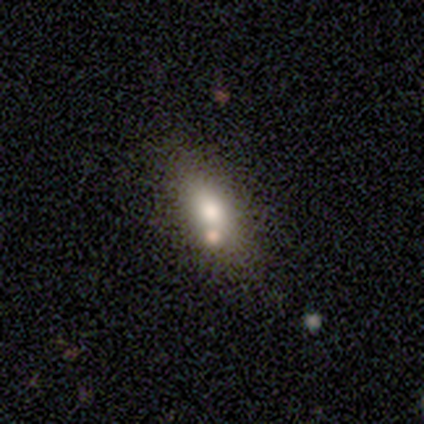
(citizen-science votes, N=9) Volunteers were most divided on "smooth or featured": smooth: 67%, featured or disk: 22%, star or artifact: 11%. More confident: how rounded — in between (83%); merging — none (75%).